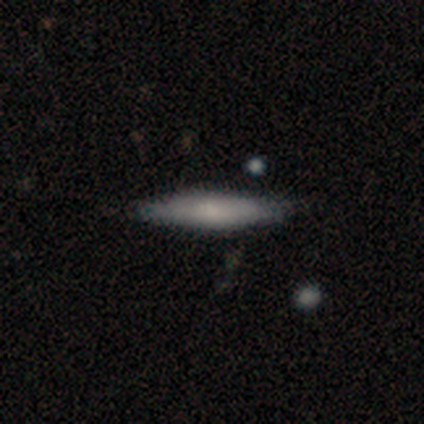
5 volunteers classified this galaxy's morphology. A smooth galaxy with no disk features (80%) that is cigar-shaped (75%). Merging: none (100%).